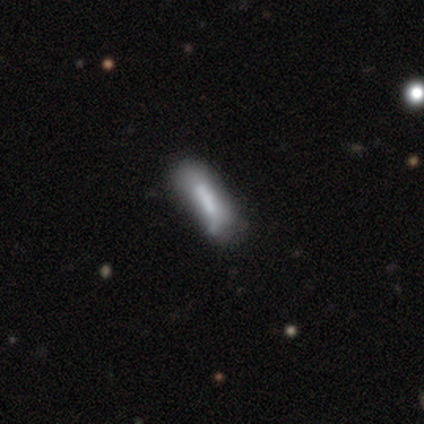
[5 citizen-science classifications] Q: Smooth or featured?
A: smooth (60%); runner-up: featured or disk (20%)
Q: How rounded?
A: cigar-shaped (100%)
Q: Merging?
A: minor disturbance (75%); runner-up: merger (25%)